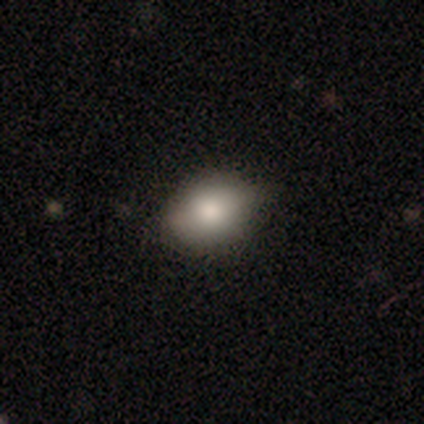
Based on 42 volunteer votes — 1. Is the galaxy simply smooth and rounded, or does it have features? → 64% smooth, 24% featured or disk, 12% star or artifact.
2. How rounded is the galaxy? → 67% in between, 33% round, 0% cigar-shaped.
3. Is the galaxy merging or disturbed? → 62% none, 35% minor disturbance, 3% major disturbance, 0% merger.